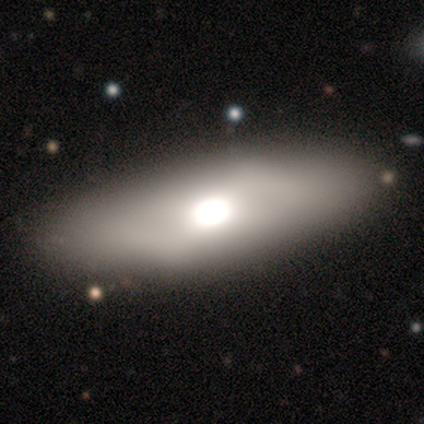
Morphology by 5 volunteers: Smooth or featured?
  - smooth: 60% *
  - featured or disk: 40%
  - star or artifact: 0%
How rounded?
  - in between: 67% *
  - round: 33%
  - cigar-shaped: 0%
Merging?
  - none: 80% *
  - major disturbance: 20%
  - minor disturbance: 0%
  - merger: 0%